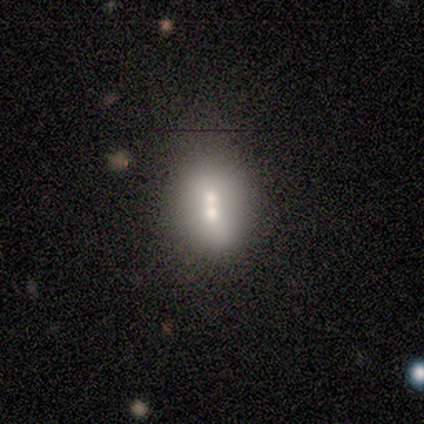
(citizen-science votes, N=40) This appears to be a smooth galaxy with no disk features (65%) that is in between round and cigar-shaped (54%). Merging: merger (61%).